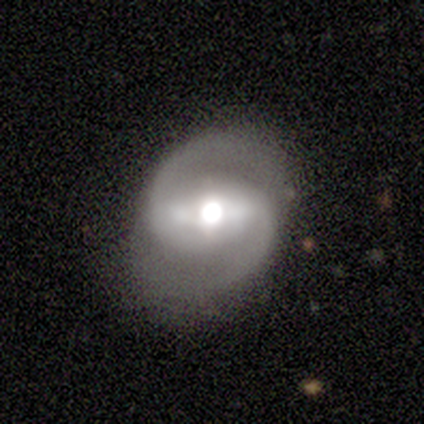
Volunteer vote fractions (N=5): A featured or disk galaxy (100%) with a strong bar (80%), 2 (100%) medium (80%) spiral arms (100%) and a large central bulge (80%). Merging: none (100%).